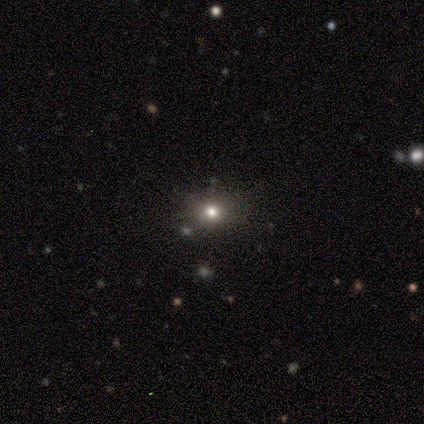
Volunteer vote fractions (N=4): Smooth or featured? 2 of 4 (50%, tied with star or artifact) said smooth. How rounded? 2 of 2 (100%) said round. Merging? 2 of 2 (100%) said none.